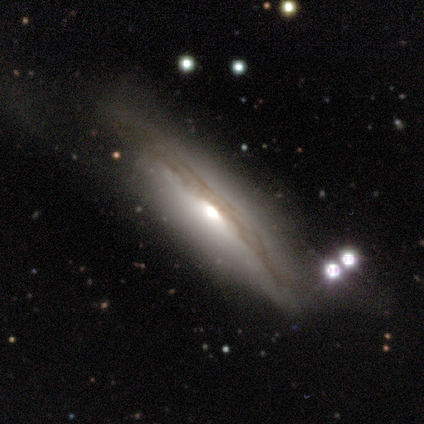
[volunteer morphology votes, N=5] type=featured or disk (80%); edge-on=yes (75%); edge-on bulge=rounded (100%); merging=minor disturbance (60%).